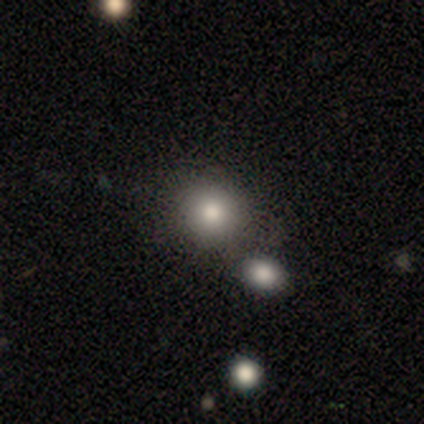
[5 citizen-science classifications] A smooth galaxy with no disk features (60%) that is round (100%). Merging: none (100%).